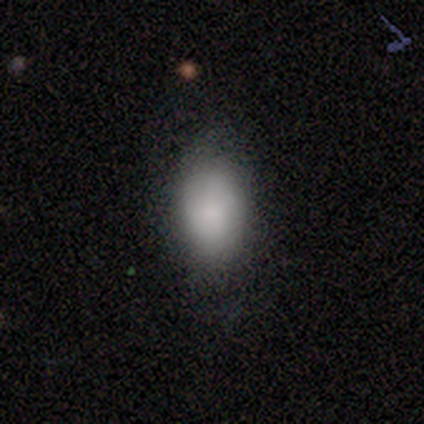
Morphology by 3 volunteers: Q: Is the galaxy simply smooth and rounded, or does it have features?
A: smooth — 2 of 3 (67%).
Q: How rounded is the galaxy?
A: in between — 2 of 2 (100%).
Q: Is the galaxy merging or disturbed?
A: none — 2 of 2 (100%).